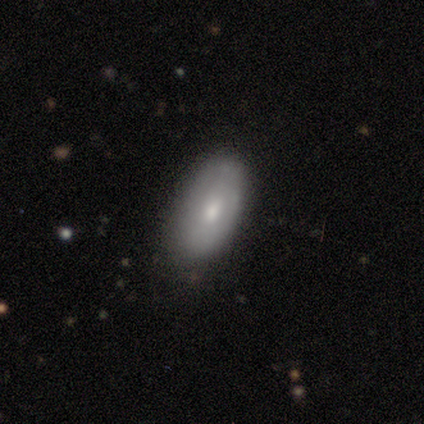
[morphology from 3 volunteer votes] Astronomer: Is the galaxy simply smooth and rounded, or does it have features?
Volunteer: smooth — 67%.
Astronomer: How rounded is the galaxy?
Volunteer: in between — 100%.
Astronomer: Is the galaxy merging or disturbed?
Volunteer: none — 100%.